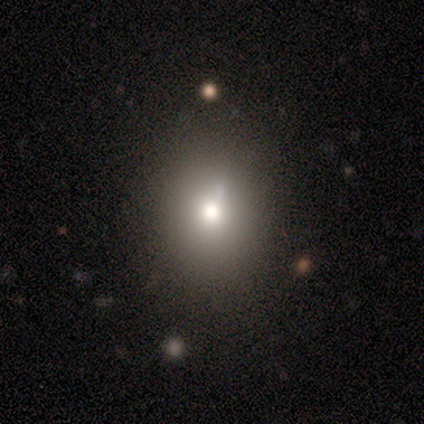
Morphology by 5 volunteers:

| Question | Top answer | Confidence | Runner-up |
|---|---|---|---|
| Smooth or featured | smooth | 80% | star or artifact (20%) |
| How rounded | round | 100% | — |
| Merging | none | 100% | — |